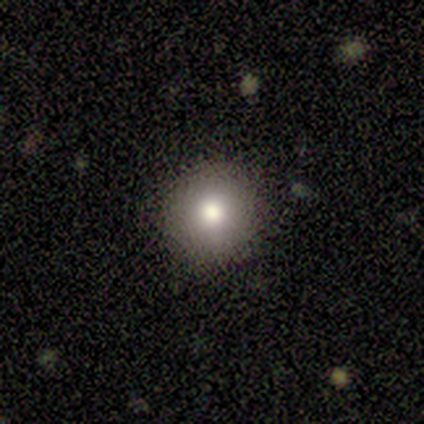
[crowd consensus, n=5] Volunteers were most divided on "merging": none: 80%, minor disturbance: 20%, major disturbance: 0%, merger: 0%. More confident: smooth or featured — smooth (100%); how rounded — round (100%).